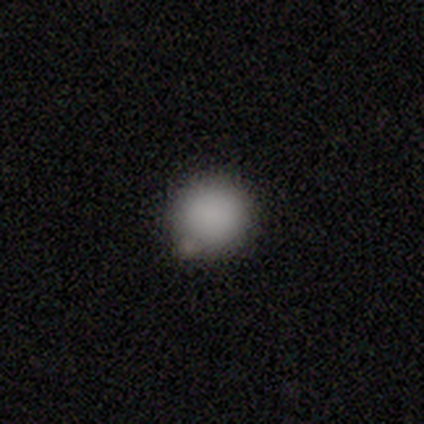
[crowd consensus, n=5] A smooth galaxy with no disk features (80%) that is round (100%). Merging: none (100%).